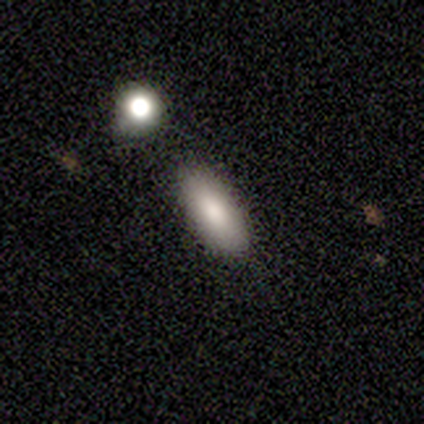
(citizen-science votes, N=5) This is clearly a smooth galaxy (80%). How rounded: possibly in between (50%, tied with cigar-shaped). Merging: clearly none (100%).